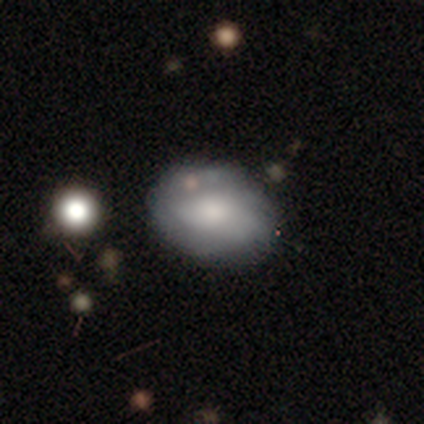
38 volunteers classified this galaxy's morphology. Overall: smooth (63%; featured or disk 37%). How rounded: in between (88%). Merging: none (55%).